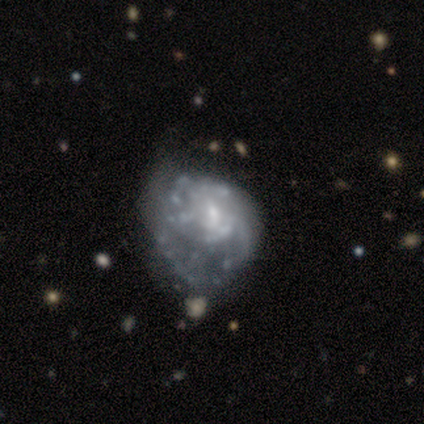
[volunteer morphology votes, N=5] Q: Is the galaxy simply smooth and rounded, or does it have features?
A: featured or disk — 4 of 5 (80%).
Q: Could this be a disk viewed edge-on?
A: no — 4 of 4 (100%).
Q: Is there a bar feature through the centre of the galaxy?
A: no — 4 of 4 (100%).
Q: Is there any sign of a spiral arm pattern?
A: yes — 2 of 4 (50%, tied with no).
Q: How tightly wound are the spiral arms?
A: medium — 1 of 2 (50%, tied with loose).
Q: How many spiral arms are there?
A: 1 — 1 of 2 (50%, tied with can't tell).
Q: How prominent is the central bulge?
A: small — 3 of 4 (75%).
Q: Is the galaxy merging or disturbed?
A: minor disturbance — 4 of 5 (80%).